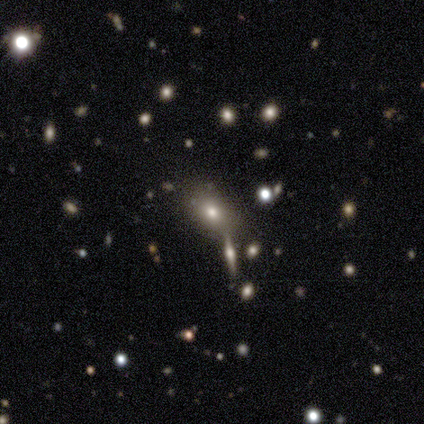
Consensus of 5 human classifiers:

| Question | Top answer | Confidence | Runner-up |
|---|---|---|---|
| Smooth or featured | smooth | 100% | — |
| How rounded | in between | 80% | round (20%) |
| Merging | none | 100% | — |